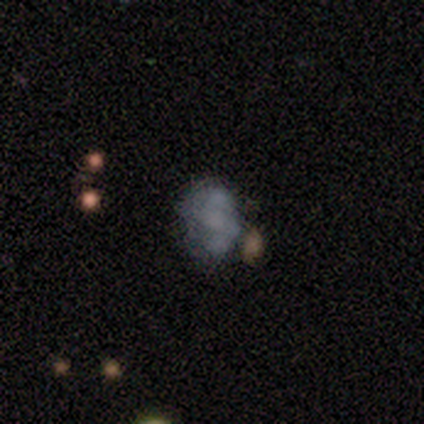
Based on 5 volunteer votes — Smooth or featured: smooth — 40% (tied with featured or disk — 40%)
How rounded: in between — 100%
Merging: none — 50% (major disturbance — 25%)